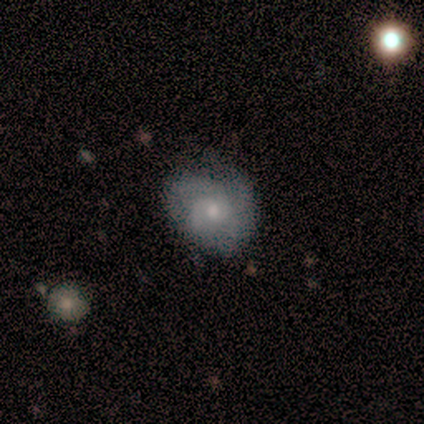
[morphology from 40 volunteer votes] A featured or disk galaxy (70%) with no bar (69%), 2 (39%) tight (39%, tied with medium) spiral arms (88%) and a small central bulge (58%).

Vote fractions:
- Smooth or featured? featured or disk: 70% / smooth: 28% / star or artifact: 2%
- Edge-on disk? no: 93% / yes: 7%
- Bar? no: 69% / weak: 23% / strong: 8%
- Spiral arms? yes: 88% / no: 12%
- Spiral winding? tight: 39% (tied) / medium: 39% (tied) / loose: 22%
- Spiral arm count? 2: 39% / can't tell: 22% / 1: 17% / 3: 17% / 4: 4% / more than 4: 0%
- Bulge size? small: 58% / moderate: 38% / dominant: 4% / large: 0% / none: 0%
- Merging? none: 62% / minor disturbance: 33% / major disturbance: 3% / merger: 3%